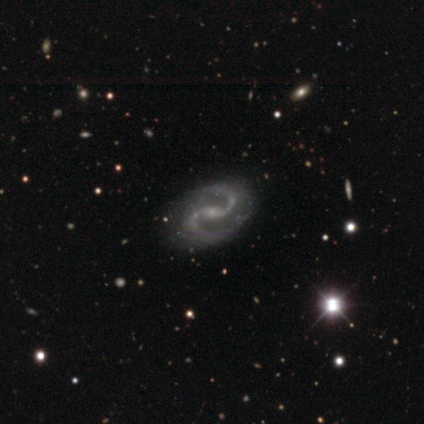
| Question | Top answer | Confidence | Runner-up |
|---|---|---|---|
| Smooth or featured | featured or disk | 97% | star or artifact (3%) |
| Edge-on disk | no | 100% | — |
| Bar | weak | 44% | strong (33%) |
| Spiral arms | yes | 100% | — |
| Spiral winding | medium | 64% | loose (28%) |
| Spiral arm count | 2 | 100% | — |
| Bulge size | small | 89% | moderate (11%) |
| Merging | none | 64% | minor disturbance (6%) |